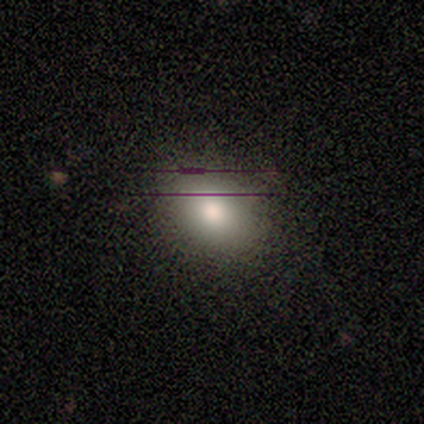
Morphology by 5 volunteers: A smooth galaxy with no disk features (100%) that is in between round and cigar-shaped (60%). Merging: none (100%).